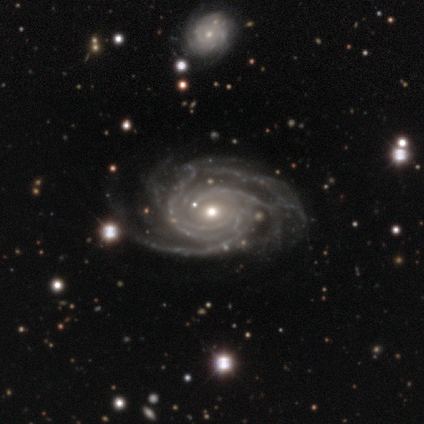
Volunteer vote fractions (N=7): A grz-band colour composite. It shows a featured or disk galaxy (86%) with no bar (50%), more than 4 (50%) tight (83%) spiral arms (100%) and a small central bulge (67%). Merging: none (100%).